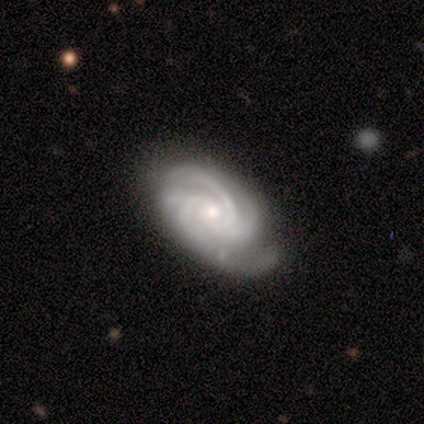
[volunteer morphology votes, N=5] This is clearly a featured or disk galaxy (100%). It is clearly not viewed edge-on (100%). Bar: likely no (60%). Spiral arm pattern: clearly yes (100%). Spiral arm count: marginally 3 (40%, tied with 4). Spiral winding: likely tight (60%). Central bulge: likely small (60%). Merging: clearly none (80%).